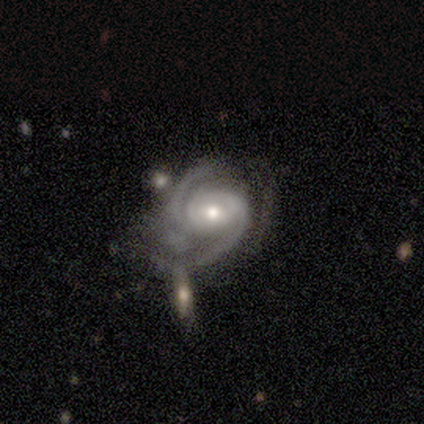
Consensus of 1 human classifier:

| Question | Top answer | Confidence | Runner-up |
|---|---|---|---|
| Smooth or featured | featured or disk | 100% | — |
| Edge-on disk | no | 100% | — |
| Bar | no | 100% | — |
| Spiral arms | yes | 100% | — |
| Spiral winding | tight | 100% | — |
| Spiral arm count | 2 | 100% | — |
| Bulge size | large | 100% | — |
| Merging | minor disturbance | 100% | — |